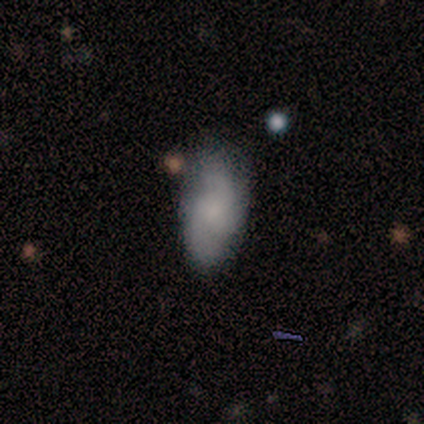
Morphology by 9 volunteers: Smooth or featured? 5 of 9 (56%) said smooth. How rounded? 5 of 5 (100%) said in between. Merging? 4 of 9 (44%) said minor disturbance.